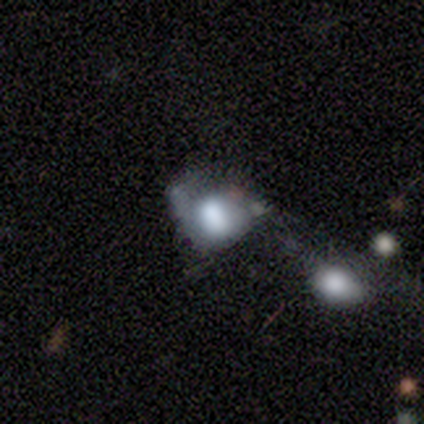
This appears to be a smooth galaxy with no disk features (100%) that is in between round and cigar-shaped (100%). Merging: major disturbance (100%).